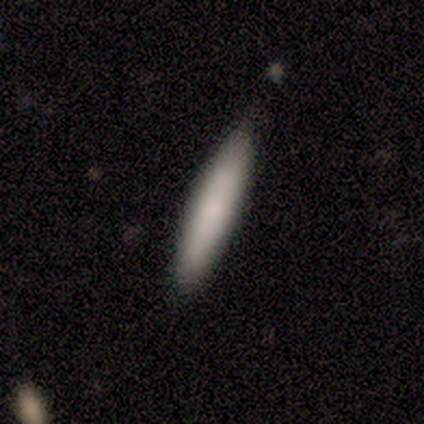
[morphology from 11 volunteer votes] smooth_or_featured: smooth (p=0.82) [alt: featured or disk p=0.09]
how_rounded: cigar-shaped (p=0.89) [alt: in between p=0.11]
merging: none (p=0.90) [alt: minor disturbance p=0.10]